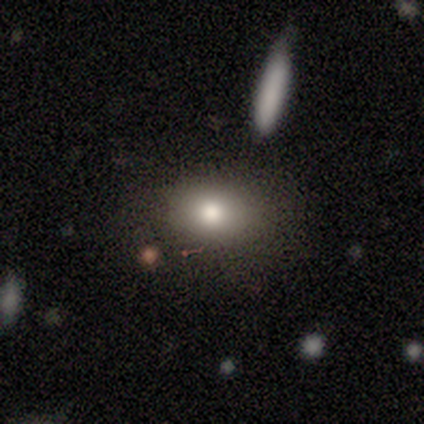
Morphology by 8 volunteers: A smooth galaxy with no disk features (75%) that is in between round and cigar-shaped (83%). Merging: none (62%).